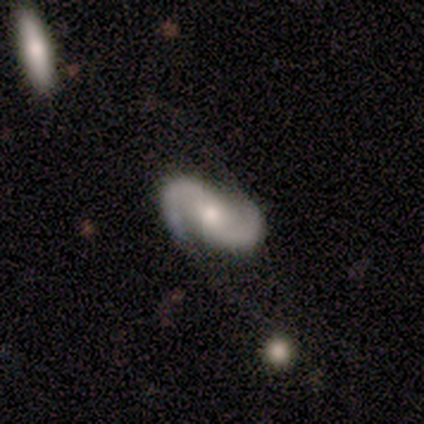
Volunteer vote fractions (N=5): smooth_or_featured: featured or disk (p=0.80) [alt: star or artifact p=0.20]
disk_edge_on: no (p=0.75) [alt: yes p=0.25]
bar: no (p=1.00)
has_spiral_arms: yes (p=1.00)
spiral_winding: medium (p=0.67) [alt: tight p=0.33]
spiral_arm_count: 2 (p=1.00)
bulge_size: moderate (p=1.00)
merging: none (p=0.50) [alt: minor disturbance p=0.25]